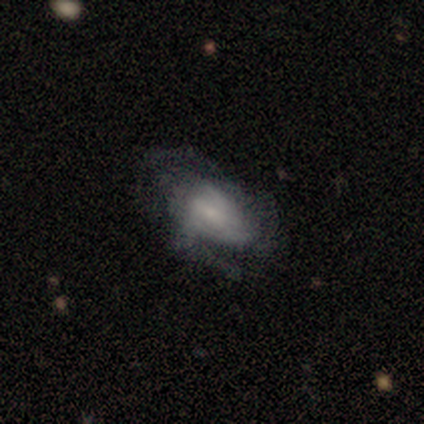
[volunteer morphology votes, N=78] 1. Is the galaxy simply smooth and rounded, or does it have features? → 71% featured or disk, 28% smooth, 1% star or artifact.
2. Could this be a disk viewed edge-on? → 96% no, 4% yes.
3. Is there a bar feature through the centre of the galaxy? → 55% no, 45% weak, 0% strong.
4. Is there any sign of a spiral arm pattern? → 85% yes, 15% no.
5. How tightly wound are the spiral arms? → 42% medium, 31% tight, 27% loose.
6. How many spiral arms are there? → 56% can't tell, 20% 2, 18% 3, 4% 1, 2% 4, 0% more than 4.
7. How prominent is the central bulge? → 49% small, 28% none, 21% moderate, 2% large, 0% dominant.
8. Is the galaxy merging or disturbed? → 23% none, 22% major disturbance, 13% minor disturbance, 1% merger.